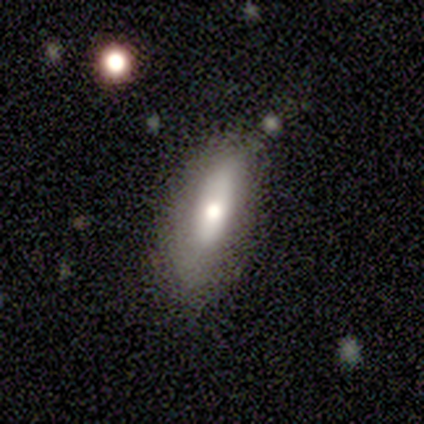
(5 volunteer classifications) Smooth or featured? smooth (80%)
How rounded? in between (50%, tied with cigar-shaped)
Merging? none (80%)